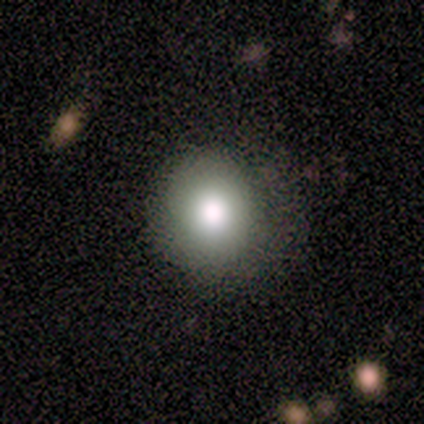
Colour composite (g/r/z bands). It shows a smooth galaxy with no disk features (68%) that is round (89%). Merging: none (78%).